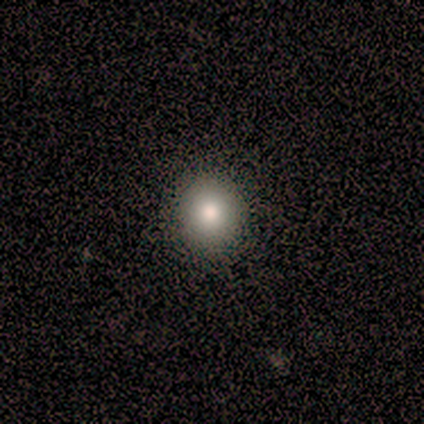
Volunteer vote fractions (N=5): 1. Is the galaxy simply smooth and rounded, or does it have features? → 80% smooth, 20% star or artifact, 0% featured or disk.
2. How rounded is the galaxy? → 75% round, 25% in between, 0% cigar-shaped.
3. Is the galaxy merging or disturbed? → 100% none, 0% minor disturbance, 0% major disturbance, 0% merger.